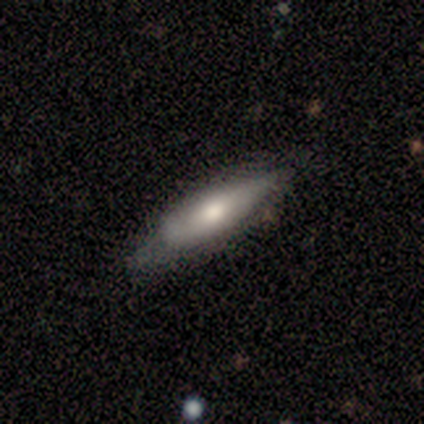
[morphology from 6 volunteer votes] Smooth or featured? 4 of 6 (67%) said featured or disk. Edge-on disk? 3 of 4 (75%) said no. Bar? 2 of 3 (67%) said no. Spiral arms? 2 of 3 (67%) said yes. Spiral winding? 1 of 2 (50%, tied with medium) said tight. Spiral arm count? 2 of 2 (100%) said 2. Bulge size? 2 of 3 (67%) said moderate. Merging? 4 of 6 (67%) said minor disturbance.